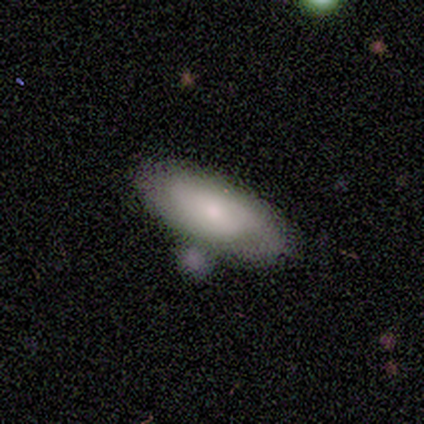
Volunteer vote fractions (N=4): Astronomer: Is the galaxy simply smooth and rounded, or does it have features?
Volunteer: smooth — 100%.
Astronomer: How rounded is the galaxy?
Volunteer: in between — 100%.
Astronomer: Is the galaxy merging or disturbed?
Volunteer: none — 50%.